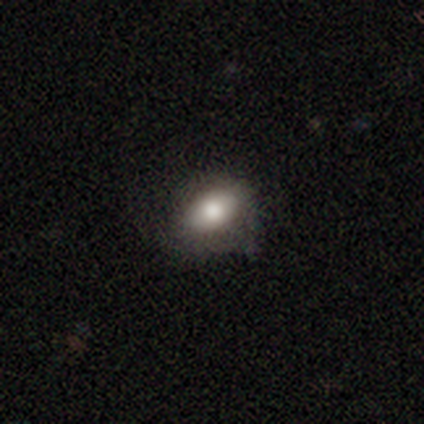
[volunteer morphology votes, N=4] smooth-or-featured: smooth: 50% | featured or disk: 25% | star or artifact: 25%
  how-rounded: in between: 100% | round: 0% | cigar-shaped: 0%
  merging: none: 67% | major disturbance: 33% | minor disturbance: 0% | merger: 0%